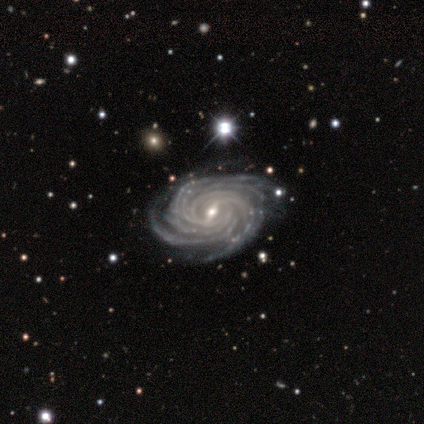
This appears to be a featured or disk galaxy (90%) with a weak bar (58%), more than 4 (55%) tight (85%) spiral arms (100%) and a small central bulge (55%). Merging: none (86%).